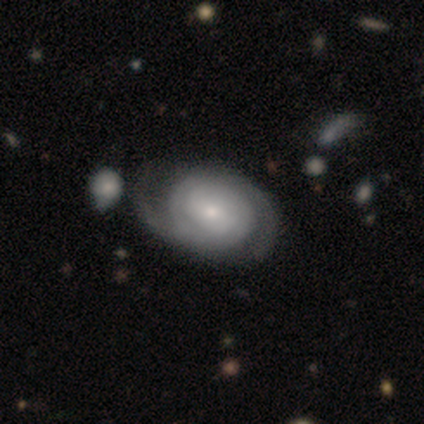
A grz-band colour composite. It shows a featured or disk galaxy (80%) with no bar (61%), 2 (60%) tight (60%) spiral arms (97%) and a small central bulge (45%). Merging: none (46%).